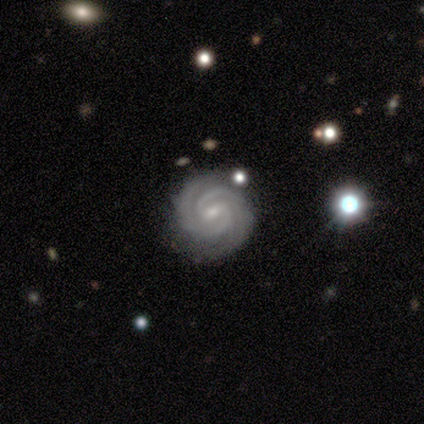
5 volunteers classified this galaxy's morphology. featured or disk 80%, star or artifact 20%, smooth 0%. Down the decision tree: edge-on disk — no (100%); bar — weak (100%); spiral arms — yes (100%); spiral arm count — 2 (100%); spiral winding — tight (75%); bulge size — small (75%); merging — none (100%).